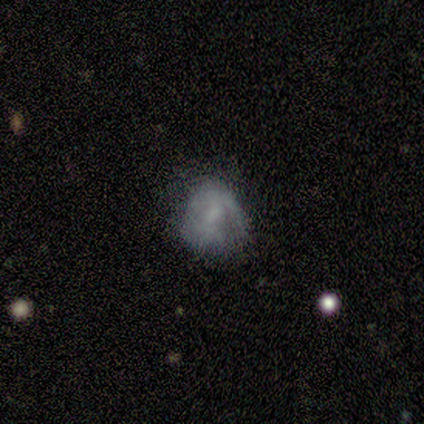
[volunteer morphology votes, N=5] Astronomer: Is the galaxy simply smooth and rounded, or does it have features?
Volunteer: star or artifact — 60%.